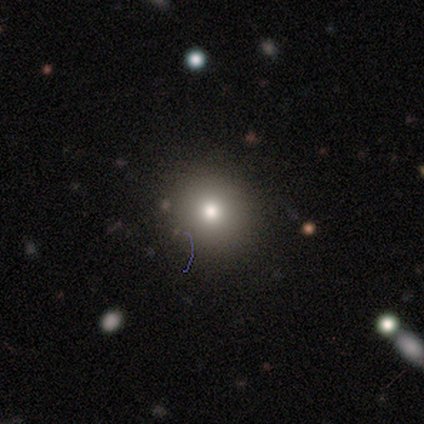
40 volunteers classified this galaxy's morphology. Smooth or featured? 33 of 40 (82%) said smooth. How rounded? 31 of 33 (94%) said round. Merging? 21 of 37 (57%) said none.